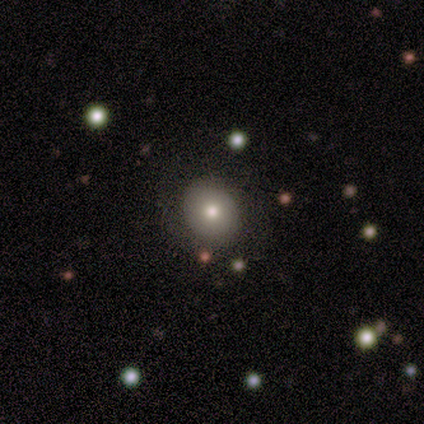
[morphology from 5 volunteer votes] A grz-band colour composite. It shows a smooth galaxy with no disk features (60%) that is in between round and cigar-shaped (67%). Merging: none (60%).